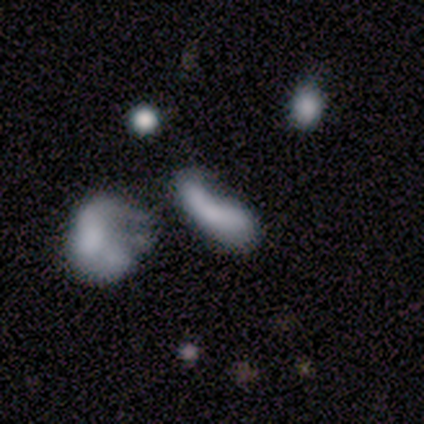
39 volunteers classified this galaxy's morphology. A smooth galaxy with no disk features (69%) that is in between round and cigar-shaped (59%). Merging: major disturbance (36%).